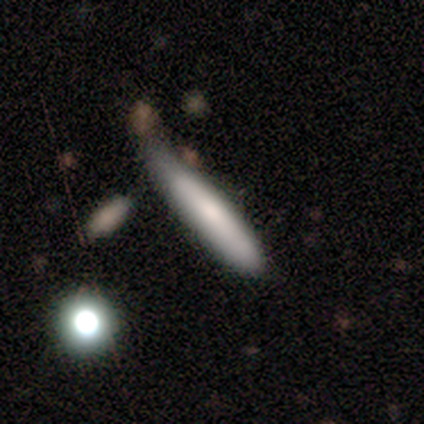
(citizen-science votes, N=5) This appears to be a smooth galaxy with no disk features (60%) that is cigar-shaped (100%). Merging: minor disturbance (60%).